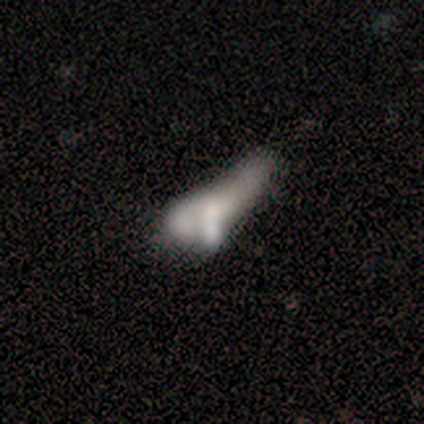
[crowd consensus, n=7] featured or disk 57%, smooth 29%, star or artifact 14%. Down the decision tree: edge-on disk — no (100%); bar — no (100%); spiral arms — no (100%); bulge size — none (75%); merging — minor disturbance (33%, tied with merger).